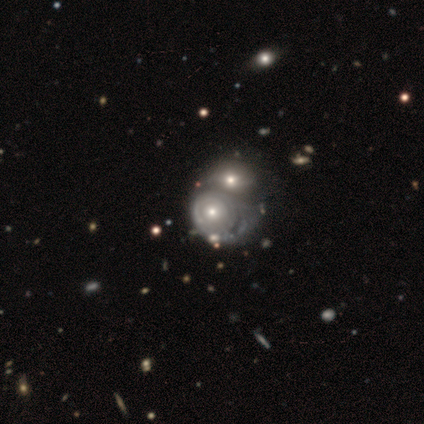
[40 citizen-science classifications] smooth_or_featured: featured or disk (p=0.75) [alt: smooth p=0.25]
disk_edge_on: no (p=1.00)
bar: no (p=0.87) [alt: weak p=0.10]
has_spiral_arms: yes (p=0.70) [alt: no p=0.30]
spiral_winding: tight (p=0.81) [alt: medium p=0.10]
spiral_arm_count: can't tell (p=0.62) [alt: 2 p=0.14]
bulge_size: moderate (p=0.60) [alt: small p=0.37]
merging: merger (p=0.72) [alt: major disturbance p=0.10]